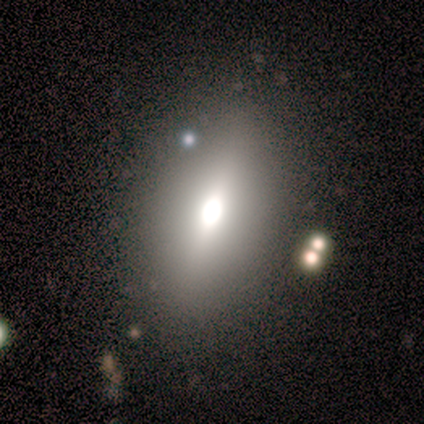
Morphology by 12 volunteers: smooth_or_featured: smooth (p=0.50) [alt: featured or disk p=0.25]
how_rounded: in between (p=1.00)
merging: none (p=0.56) [alt: minor disturbance p=0.33]